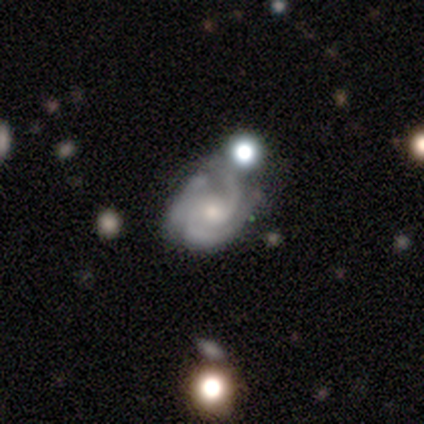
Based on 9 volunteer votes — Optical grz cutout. It shows a featured or disk galaxy (89%) with no bar (86%), 3 (43%) tight (71%) spiral arms (100%) and a small central bulge (57%). Merging: none (88%).